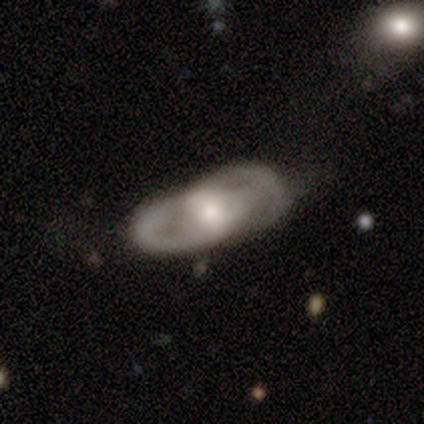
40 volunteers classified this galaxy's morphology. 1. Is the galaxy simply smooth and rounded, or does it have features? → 72% featured or disk, 20% smooth, 8% star or artifact.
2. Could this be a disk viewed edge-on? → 90% no, 10% yes.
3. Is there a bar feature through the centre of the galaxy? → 50% weak, 35% no, 15% strong.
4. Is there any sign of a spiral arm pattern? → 69% yes, 31% no.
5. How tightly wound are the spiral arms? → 33% tight (tied), 33% medium (tied), 33% loose (tied).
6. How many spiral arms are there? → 56% 2, 44% can't tell, 0% 1, 0% 3, 0% 4, 0% more than 4.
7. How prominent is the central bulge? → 54% moderate, 27% large, 8% dominant, 8% small, 4% none.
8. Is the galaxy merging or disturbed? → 38% none, 27% major disturbance, 22% minor disturbance, 14% merger.